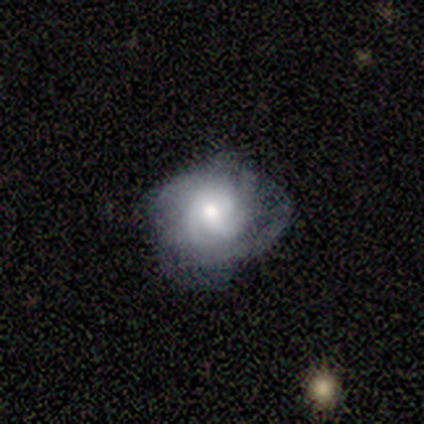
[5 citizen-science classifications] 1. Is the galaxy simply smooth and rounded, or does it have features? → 40% featured or disk (tied), 40% star or artifact (tied), 20% smooth.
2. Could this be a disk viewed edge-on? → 100% no, 0% yes.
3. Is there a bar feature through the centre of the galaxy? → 50% weak (tied), 50% no (tied), 0% strong.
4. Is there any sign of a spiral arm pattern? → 100% yes, 0% no.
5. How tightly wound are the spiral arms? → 100% tight, 0% medium, 0% loose.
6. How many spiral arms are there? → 50% 2 (tied), 50% 3 (tied), 0% 1, 0% 4, 0% more than 4, 0% can't tell.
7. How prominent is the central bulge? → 50% moderate (tied), 50% small (tied), 0% dominant, 0% large, 0% none.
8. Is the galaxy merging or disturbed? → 33% none (tied), 33% minor disturbance (tied), 33% major disturbance (tied), 0% merger.